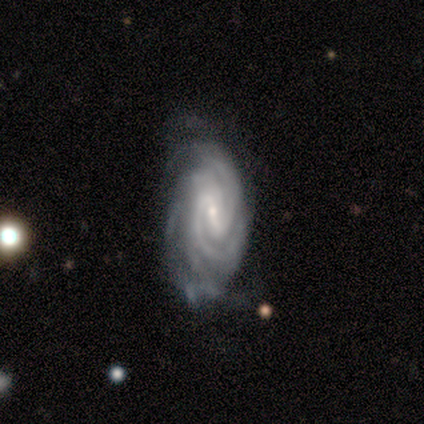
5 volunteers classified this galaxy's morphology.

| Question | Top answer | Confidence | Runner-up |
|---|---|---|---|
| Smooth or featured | featured or disk | 100% | — |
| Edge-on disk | no | 80% | yes (20%) |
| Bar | weak | 50% | tied: no (50%) |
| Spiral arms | yes | 100% | — |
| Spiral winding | tight | 75% | medium (25%) |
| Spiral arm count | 2 | 50% | 3 (25%) |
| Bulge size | moderate | 50% | tied: small (50%) |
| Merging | none | 60% | minor disturbance (20%) |